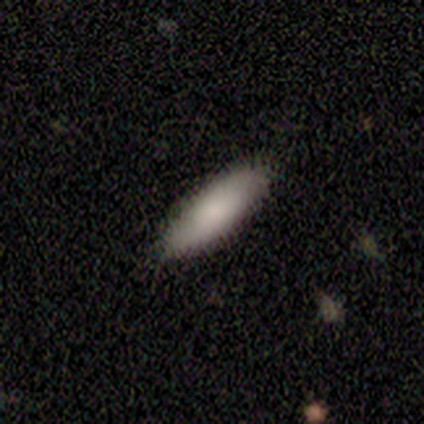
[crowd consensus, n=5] smooth-or-featured: smooth: 80% | featured or disk: 20% | star or artifact: 0%
  how-rounded: in between: 75% | cigar-shaped: 25% | round: 0%
  merging: none: 100% | minor disturbance: 0% | major disturbance: 0% | merger: 0%